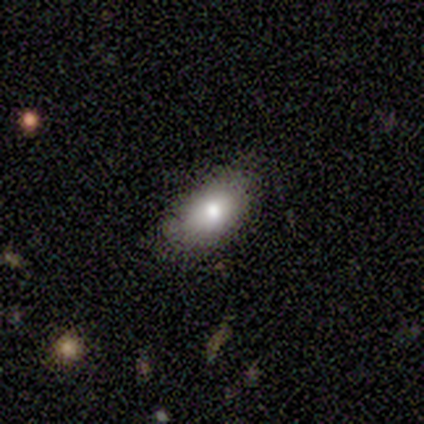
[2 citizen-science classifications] smooth 50% (tied), featured or disk 50% (tied), star or artifact 0%. Down the decision tree: how rounded — in between (100%); merging — none (100%).